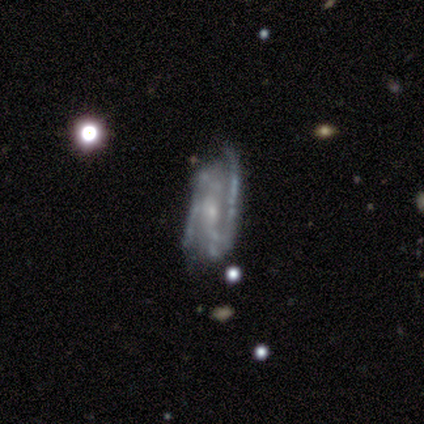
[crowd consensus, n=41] Volunteers were most divided on "spiral winding": tight: 41%, medium: 37%, loose: 22%. More confident: edge-on disk — no (91%); smooth or featured — featured or disk (85%); spiral arms — yes (84%); spiral arm count — 2 (78%); bulge size — small (72%); merging — none (62%); bar — no (56%).